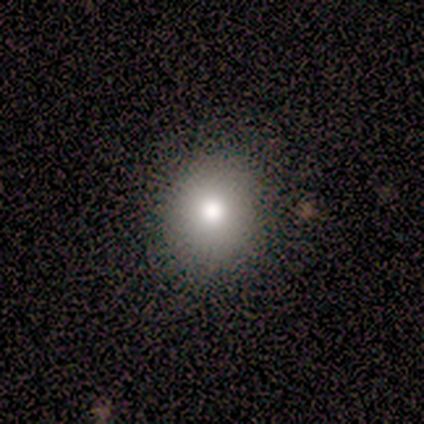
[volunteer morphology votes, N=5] smooth 60%, star or artifact 40%, featured or disk 0%. Down the decision tree: how rounded — round (100%); merging — none (100%).